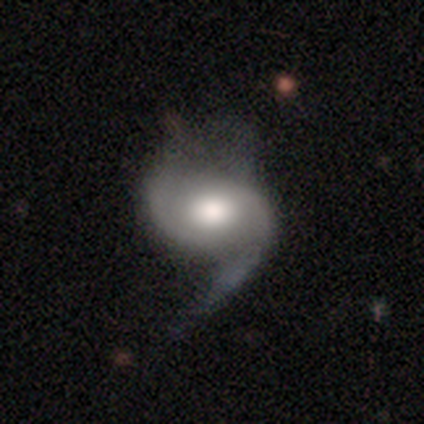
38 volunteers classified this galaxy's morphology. featured or disk 79%, smooth 16%, star or artifact 5%. Down the decision tree: edge-on disk — no (100%); bar — no (70%); spiral arms — yes (97%); spiral arm count — 2 (55%); spiral winding — medium (45%); bulge size — moderate (53%); merging — none (42%).